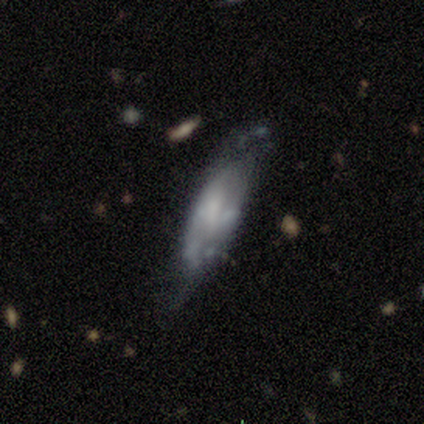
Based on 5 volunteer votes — Overall: featured or disk (60%; smooth 40%). Edge-on disk: no (100%). Bar: weak (100%). Spiral arms: no (67%; yes 33%). Bulge size: moderate (33%, tied with small and none). Merging: none (40%, tied with minor disturbance).